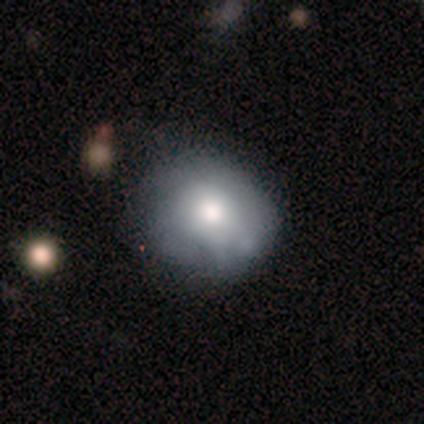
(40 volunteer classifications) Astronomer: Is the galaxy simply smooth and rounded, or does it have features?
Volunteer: smooth — 48% (runner-up: featured or disk, 45%).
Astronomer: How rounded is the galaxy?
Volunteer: round — 79%.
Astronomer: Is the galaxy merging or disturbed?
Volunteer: none — 51% (runner-up: minor disturbance, 32%).